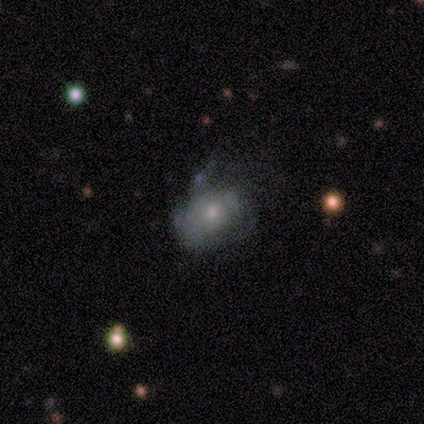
Smooth or featured?
  - smooth: 60% *
  - featured or disk: 40%
  - star or artifact: 0%
How rounded?
  - in between: 100% *
  - round: 0%
  - cigar-shaped: 0%
Merging?
  - minor disturbance: 40% * (tied)
  - major disturbance: 40% * (tied)
  - none: 20%
  - merger: 0%